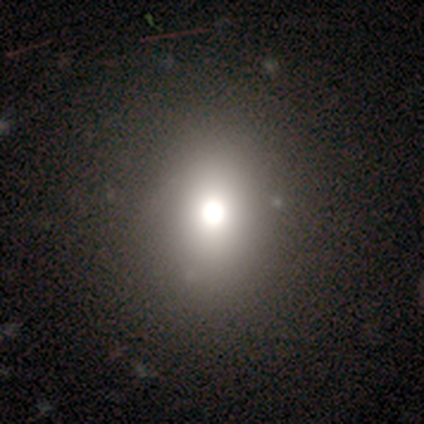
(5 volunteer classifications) Morphology: type=smooth (60%); roundness=in between (67%); merging=none (67%).